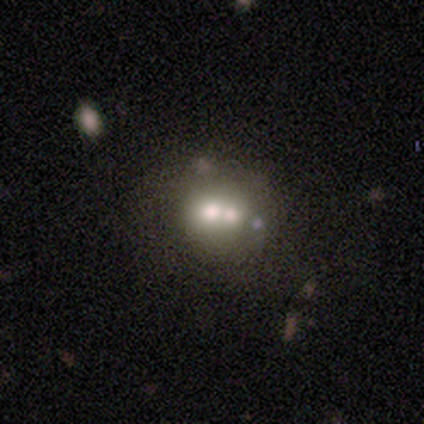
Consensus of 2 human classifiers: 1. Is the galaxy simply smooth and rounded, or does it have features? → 50% smooth (tied), 50% featured or disk (tied), 0% star or artifact.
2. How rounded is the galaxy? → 100% round, 0% in between, 0% cigar-shaped.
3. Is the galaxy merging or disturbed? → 50% none (tied), 50% merger (tied), 0% minor disturbance, 0% major disturbance.